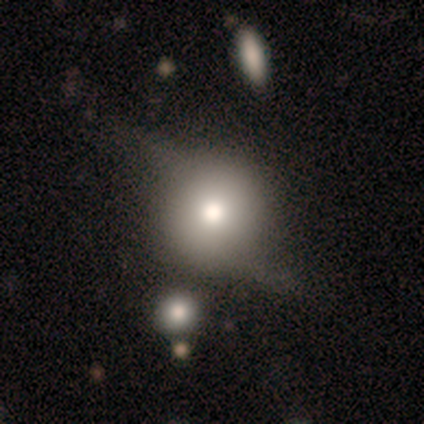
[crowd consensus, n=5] A smooth galaxy with no disk features (100%) that is round (100%). Merging: none (40%, tied with major disturbance).